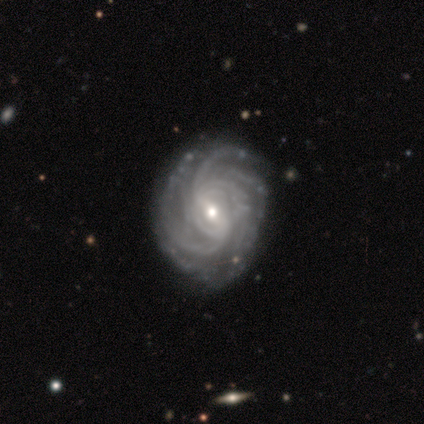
Morphology: type=featured or disk (100%); edge-on=no (100%); bar=weak (68%); spiral arms=yes (100%); winding=tight (60%); arm count=more than 4 (42%); bulge=small (52%); merging=none (57%).